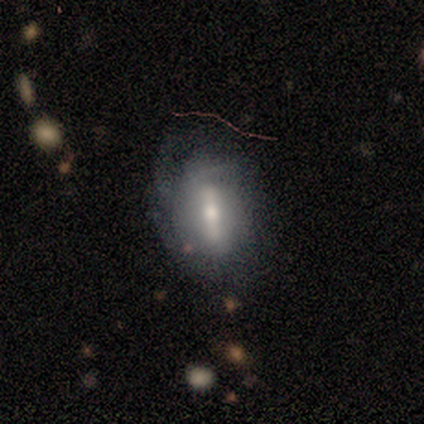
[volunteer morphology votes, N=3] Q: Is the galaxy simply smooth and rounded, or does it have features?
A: smooth — 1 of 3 (33%, tied with featured or disk and star or artifact).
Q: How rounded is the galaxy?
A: in between — 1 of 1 (100%).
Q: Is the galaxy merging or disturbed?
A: minor disturbance — 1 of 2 (50%, tied with major disturbance).